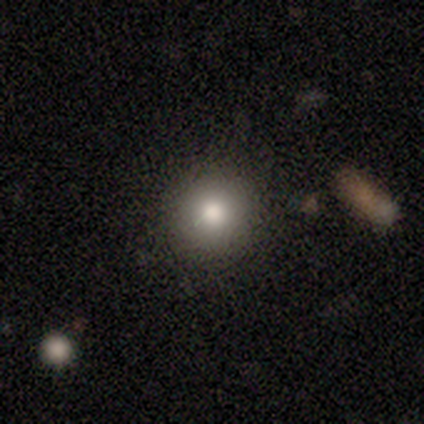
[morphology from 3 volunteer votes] A star or artifact, not a galaxy (67%).